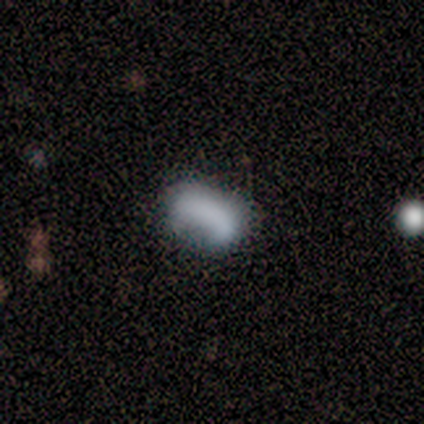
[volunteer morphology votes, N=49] smooth_or_featured: smooth (p=0.67) [alt: featured or disk p=0.29]
how_rounded: in between (p=0.91) [alt: round p=0.09]
merging: none (p=0.64) [alt: minor disturbance p=0.19]